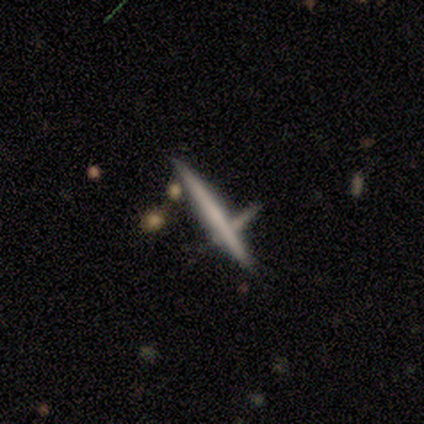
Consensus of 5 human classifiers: This appears to be a featured or disk galaxy (80%) viewed edge-on (100%) with no central bulge (100%). Merging: none (100%).